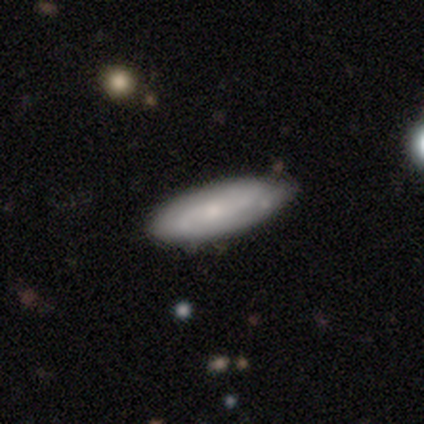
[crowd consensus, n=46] smooth_or_featured: smooth (p=0.59) [alt: featured or disk p=0.35]
how_rounded: in between (p=0.63) [alt: cigar-shaped p=0.37]
merging: none (p=0.72) [alt: minor disturbance p=0.19]